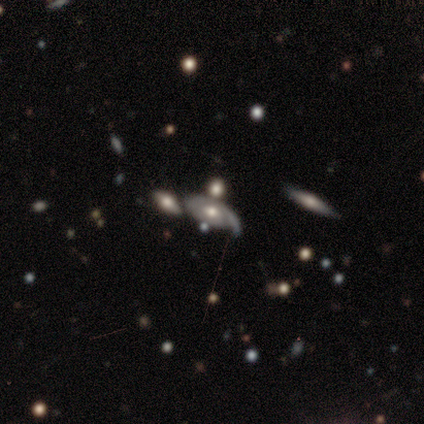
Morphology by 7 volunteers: Smooth or featured: featured or disk — 86% (star or artifact — 14%)
Edge-on disk: no — 83% (yes — 17%)
Bar: no — 60% (weak — 40%)
Spiral arms: yes — 100%
Spiral winding: loose — 60% (tight — 40%)
Spiral arm count: 1 — 100%
Bulge size: moderate — 60% (large — 20%)
Merging: none — 50% (minor disturbance — 33%)